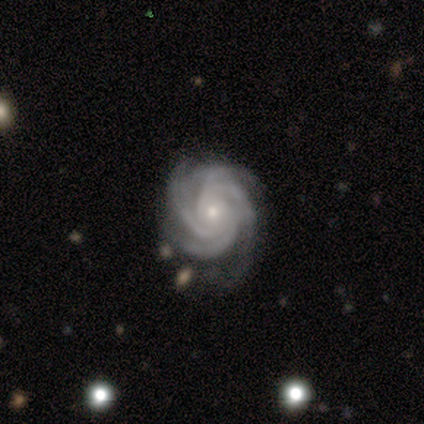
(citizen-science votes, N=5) A featured or disk galaxy (80%) with no bar (100%), 4 (75%) tight (75%) spiral arms (100%) and a moderate central bulge (50%, tied with small). Merging: none (50%).